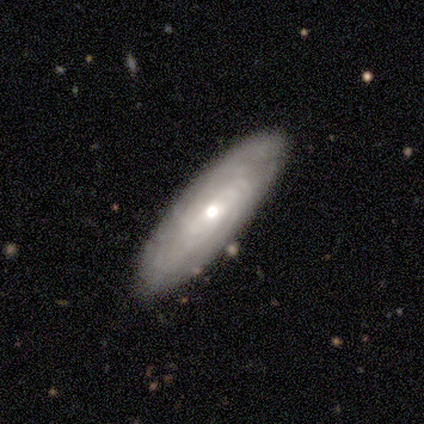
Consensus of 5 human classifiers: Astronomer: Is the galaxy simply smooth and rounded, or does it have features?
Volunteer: smooth — 60% (runner-up: featured or disk, 40%).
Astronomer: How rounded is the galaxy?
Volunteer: in between — 67%.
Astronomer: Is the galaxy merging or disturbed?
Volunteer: none — 80%.